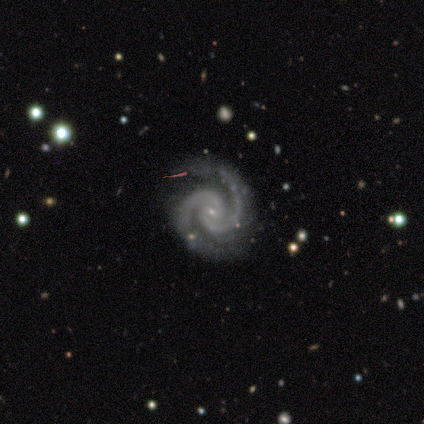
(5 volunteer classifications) featured or disk 100%, smooth 0%, star or artifact 0%. Down the decision tree: edge-on disk — no (80%); bar — no (100%); spiral arms — yes (100%); spiral arm count — 2 (100%); spiral winding — medium (75%); bulge size — small (75%); merging — none (60%).